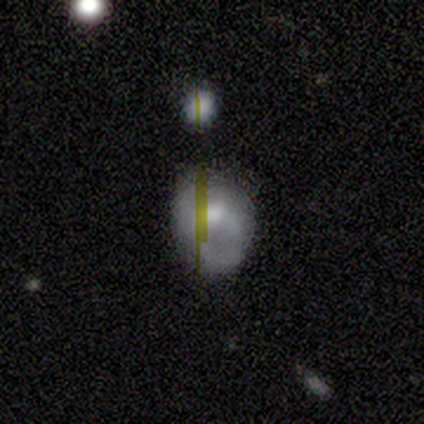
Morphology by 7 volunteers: Smooth or featured?
  - featured or disk: 57% *
  - smooth: 43%
  - star or artifact: 0%
Edge-on disk?
  - no: 100% *
  - yes: 0%
Bar?
  - no: 50% *
  - strong: 25%
  - weak: 25%
Spiral arms?
  - no: 75% *
  - yes: 25%
Bulge size?
  - moderate: 75% *
  - dominant: 25%
  - large: 0%
  - small: 0%
  - none: 0%
Merging?
  - none: 71% *
  - minor disturbance: 14%
  - merger: 14%
  - major disturbance: 0%